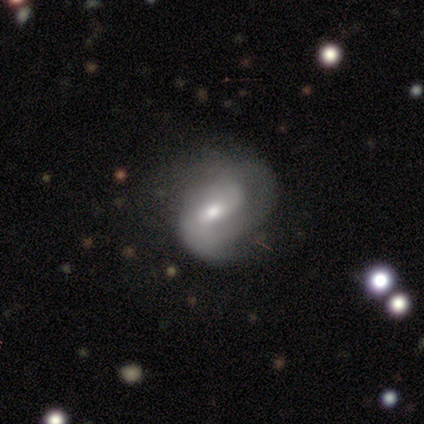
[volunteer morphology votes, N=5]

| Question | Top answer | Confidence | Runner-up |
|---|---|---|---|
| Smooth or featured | featured or disk | 60% | smooth (40%) |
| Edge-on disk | no | 67% | yes (33%) |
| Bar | weak | 100% | — |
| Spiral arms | yes | 100% | — |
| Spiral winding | tight | 50% | tied: medium (50%) |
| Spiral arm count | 1 | 50% | tied: 2 (50%) |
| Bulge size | moderate | 50% | tied: small (50%) |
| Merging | minor disturbance | 40% | tied: major disturbance (40%) |